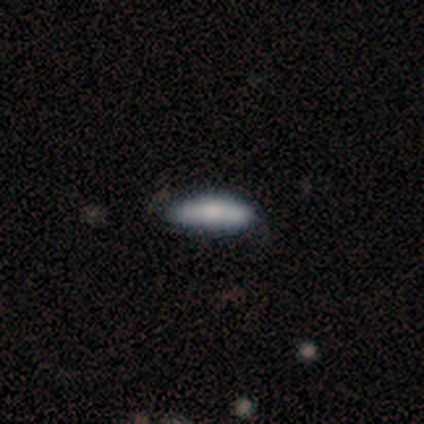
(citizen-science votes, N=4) Smooth or featured: smooth — 50% (featured or disk — 25%)
How rounded: in between — 50% (tied with cigar-shaped — 50%)
Merging: none — 67% (major disturbance — 33%)